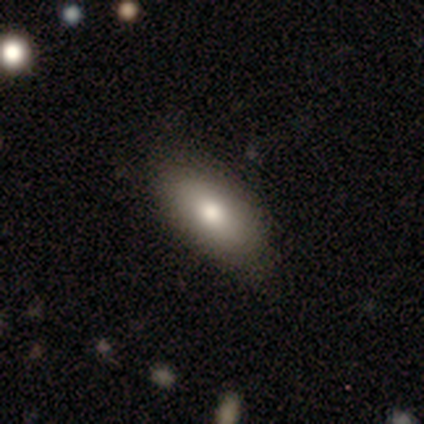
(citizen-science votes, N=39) smooth 77%, featured or disk 18%, star or artifact 5%. Down the decision tree: how rounded — in between (93%); merging — none (81%).